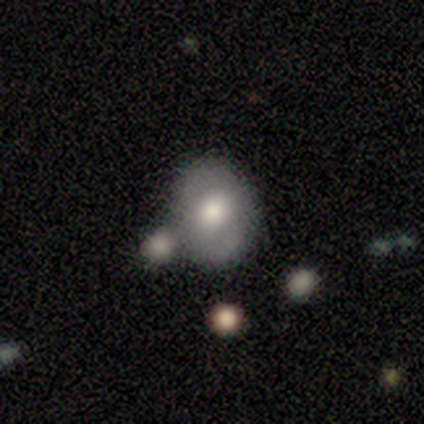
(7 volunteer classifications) Smooth or featured?
  - featured or disk: 57% *
  - smooth: 43%
  - star or artifact: 0%
Edge-on disk?
  - no: 75% *
  - yes: 25%
Bar?
  - no: 67% *
  - weak: 33%
  - strong: 0%
Spiral arms?
  - no: 67% *
  - yes: 33%
Bulge size?
  - moderate: 67% *
  - small: 33%
  - dominant: 0%
  - large: 0%
  - none: 0%
Merging?
  - none: 57% *
  - merger: 29%
  - major disturbance: 14%
  - minor disturbance: 0%